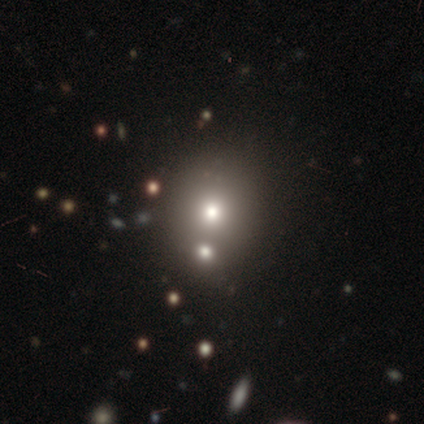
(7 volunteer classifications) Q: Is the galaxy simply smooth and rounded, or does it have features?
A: smooth — 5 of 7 (71%).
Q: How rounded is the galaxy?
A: round — 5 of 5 (100%).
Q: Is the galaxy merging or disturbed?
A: merger — 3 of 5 (60%).